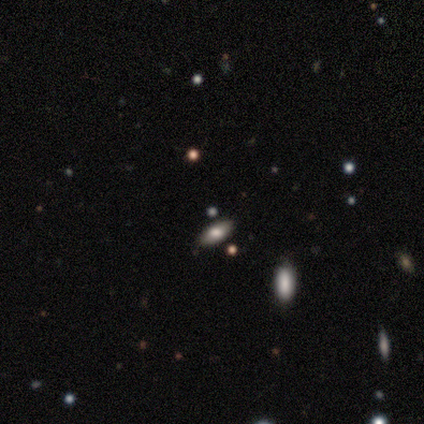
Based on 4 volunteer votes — Morphology: type=smooth (50%, tied with featured or disk); roundness=in between (100%); merging=none (100%).